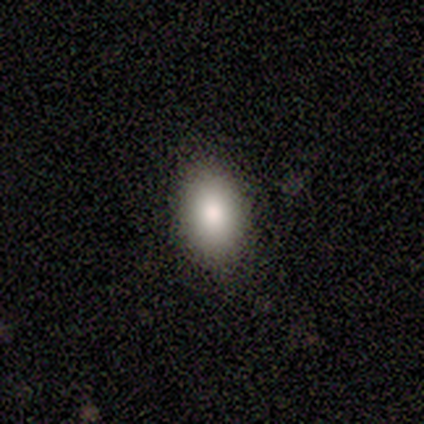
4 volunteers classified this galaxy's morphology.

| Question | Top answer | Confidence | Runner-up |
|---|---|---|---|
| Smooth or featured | smooth | 75% | featured or disk (25%) |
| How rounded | in between | 67% | round (33%) |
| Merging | none | 75% | minor disturbance (25%) |